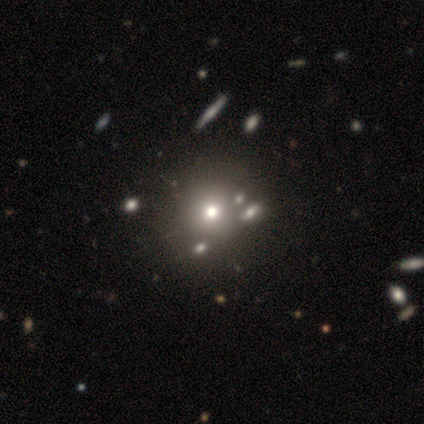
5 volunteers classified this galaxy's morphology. Overall: smooth (60%; featured or disk 20%). How rounded: round (67%; in between 33%). Merging: none (100%).